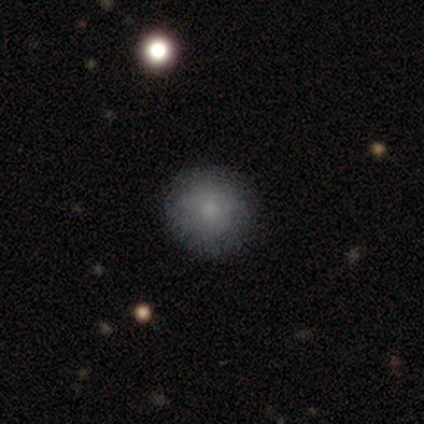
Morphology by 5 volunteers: smooth_or_featured: smooth (p=0.80) [alt: featured or disk p=0.20]
how_rounded: round (p=1.00)
merging: none (p=0.80) [alt: minor disturbance p=0.20]